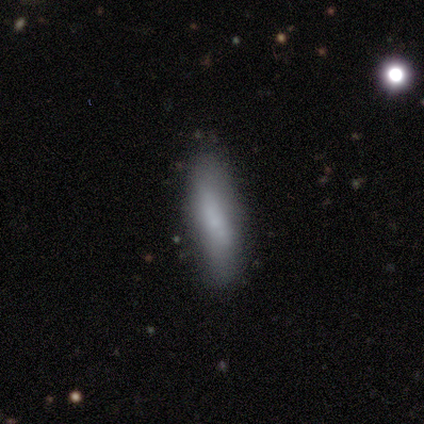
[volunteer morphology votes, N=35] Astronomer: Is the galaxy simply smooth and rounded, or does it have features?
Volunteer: smooth — 74%.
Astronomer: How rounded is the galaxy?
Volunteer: cigar-shaped — 69%.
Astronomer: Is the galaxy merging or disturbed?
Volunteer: none — 81%.